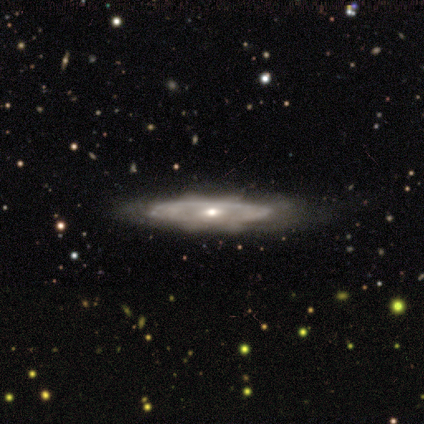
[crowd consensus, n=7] featured or disk 86%, smooth 14%, star or artifact 0%. Down the decision tree: edge-on disk — no (67%); bar — no (100%); spiral arms — no (100%); bulge size — moderate (50%, tied with small); merging — none (100%).